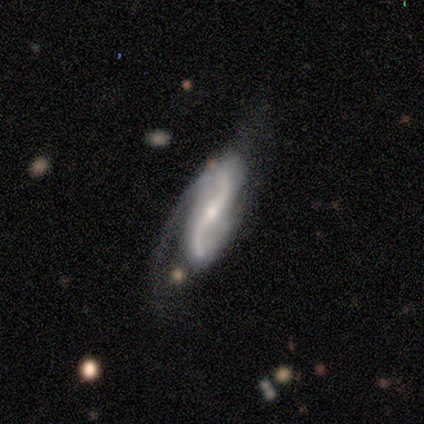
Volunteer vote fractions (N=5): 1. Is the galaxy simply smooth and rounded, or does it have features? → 100% featured or disk, 0% smooth, 0% star or artifact.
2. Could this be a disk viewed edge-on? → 100% no, 0% yes.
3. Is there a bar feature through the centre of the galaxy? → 40% weak (tied), 40% no (tied), 20% strong.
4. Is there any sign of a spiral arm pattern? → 100% yes, 0% no.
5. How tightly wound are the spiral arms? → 80% loose, 20% medium, 0% tight.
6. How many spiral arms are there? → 100% 2, 0% 1, 0% 3, 0% 4, 0% more than 4, 0% can't tell.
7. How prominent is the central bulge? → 100% moderate, 0% dominant, 0% large, 0% small, 0% none.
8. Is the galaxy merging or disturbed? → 60% none, 20% minor disturbance, 20% major disturbance, 0% merger.